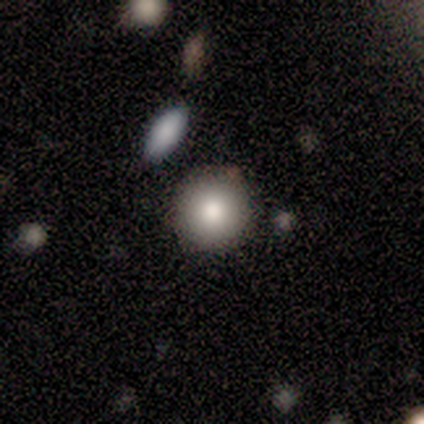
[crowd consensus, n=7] Morphology: type=smooth (71%); roundness=round (100%); merging=none (86%).